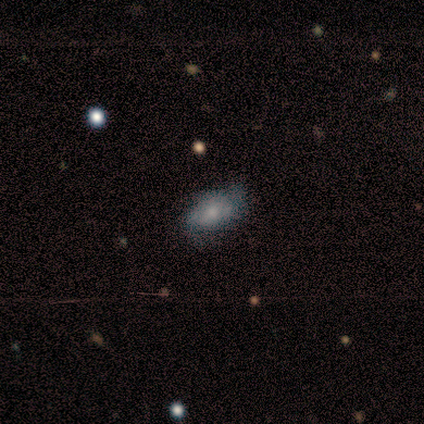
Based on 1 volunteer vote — featured or disk 100%, smooth 0%, star or artifact 0%. Down the decision tree: edge-on disk — no (100%); bar — weak (100%); spiral arms — yes (100%); spiral arm count — can't tell (100%); spiral winding — medium (100%); bulge size — small (100%); merging — major disturbance (100%).